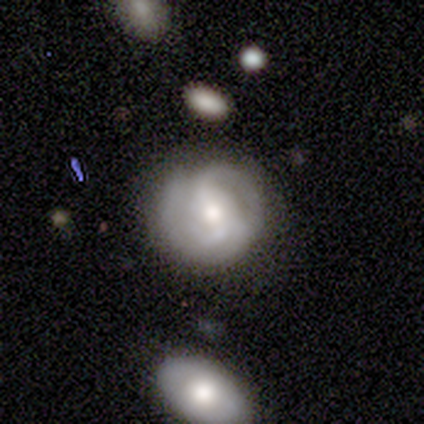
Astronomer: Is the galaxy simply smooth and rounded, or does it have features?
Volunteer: featured or disk — 75%.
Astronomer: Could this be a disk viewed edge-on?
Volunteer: no — 100%.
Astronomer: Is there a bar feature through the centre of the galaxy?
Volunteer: weak — 100%.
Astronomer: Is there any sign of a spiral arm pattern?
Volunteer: yes — 100%.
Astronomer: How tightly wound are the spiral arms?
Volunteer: loose — 100%.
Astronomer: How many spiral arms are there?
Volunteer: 2 — 100%.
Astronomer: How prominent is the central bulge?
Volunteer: moderate — 67%.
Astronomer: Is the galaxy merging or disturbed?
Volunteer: none — 75%.